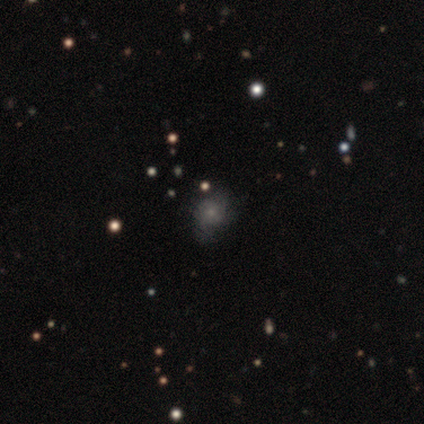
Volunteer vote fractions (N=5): A smooth galaxy with no disk features (80%) that is in between round and cigar-shaped (50%).

Vote fractions:
- Smooth or featured? smooth: 80% / featured or disk: 20% / star or artifact: 0%
- How rounded? in between: 50% / round: 25% / cigar-shaped: 25%
- Merging? minor disturbance: 60% / none: 20% / major disturbance: 20% / merger: 0%